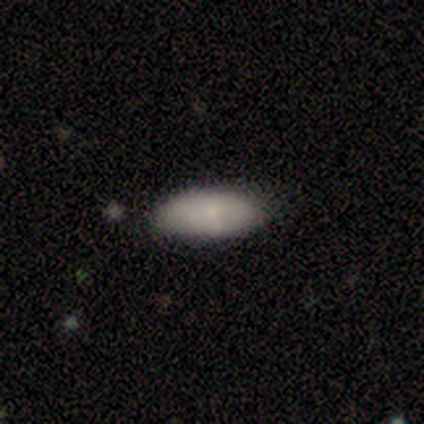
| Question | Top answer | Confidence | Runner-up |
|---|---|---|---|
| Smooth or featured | smooth | 100% | — |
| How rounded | in between | 100% | — |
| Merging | none | 80% | minor disturbance (20%) |